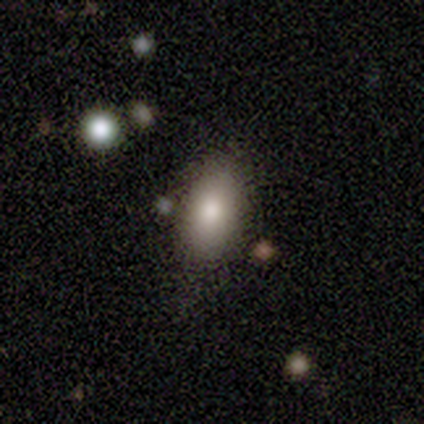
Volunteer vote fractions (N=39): Smooth or featured? smooth (82%)
How rounded? in between (97%)
Merging? none (62%)